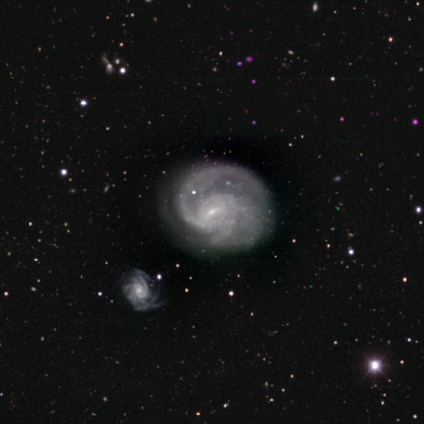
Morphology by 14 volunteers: Smooth or featured?
  - featured or disk: 100% *
  - smooth: 0%
  - star or artifact: 0%
Edge-on disk?
  - no: 100% *
  - yes: 0%
Bar?
  - weak: 57% *
  - no: 36%
  - strong: 7%
Spiral arms?
  - yes: 100% *
  - no: 0%
Spiral winding?
  - medium: 64% *
  - tight: 29%
  - loose: 7%
Spiral arm count?
  - 2: 50% *
  - 3: 21%
  - can't tell: 21%
  - 1: 7%
  - 4: 0%
  - more than 4: 0%
Bulge size?
  - small: 71% *
  - moderate: 14%
  - none: 14%
  - dominant: 0%
  - large: 0%
Merging?
  - none: 71% *
  - major disturbance: 21%
  - merger: 7%
  - minor disturbance: 0%